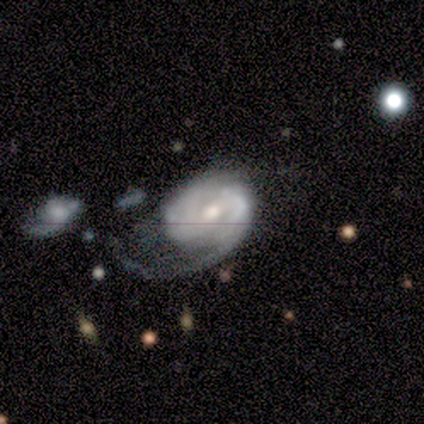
Smooth or featured: featured or disk — 88% (smooth — 8%)
Edge-on disk: no — 100%
Bar: weak — 49% (no — 37%)
Spiral arms: yes — 94% (no — 6%)
Spiral winding: tight — 42% (medium — 36%)
Spiral arm count: can't tell — 33% (1 — 30%)
Bulge size: moderate — 63% (small — 26%)
Merging: major disturbance — 50% (minor disturbance — 24%)